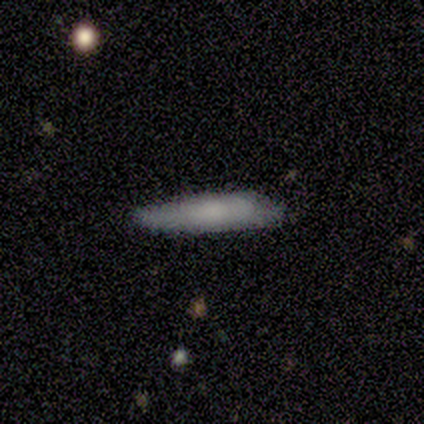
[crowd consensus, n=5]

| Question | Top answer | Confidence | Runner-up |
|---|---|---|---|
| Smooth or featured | smooth | 60% | featured or disk (40%) |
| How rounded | cigar-shaped | 67% | in between (33%) |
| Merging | none | 80% | merger (20%) |